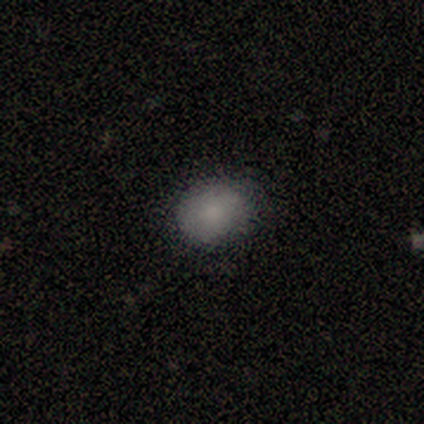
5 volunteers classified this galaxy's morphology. A smooth galaxy with no disk features (60%) that is in between round and cigar-shaped (67%). Merging: none (100%).